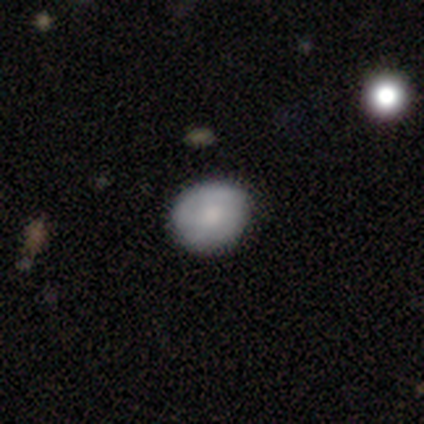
smooth-or-featured: smooth: 71% | featured or disk: 24% | star or artifact: 6%
  how-rounded: round: 77% | in between: 22% | cigar-shaped: 2%
  merging: none: 79% | minor disturbance: 18% | major disturbance: 2% | merger: 1%